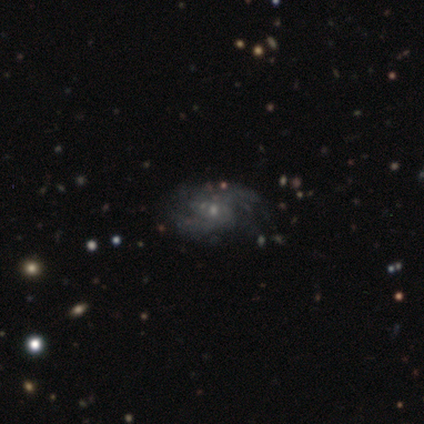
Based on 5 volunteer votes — A featured or disk galaxy (100%) with no bar (100%), 2 (80%) medium (60%) spiral arms (100%) and a small central bulge (100%). Merging: none (80%).